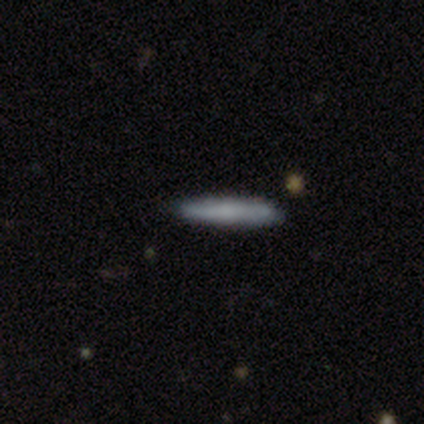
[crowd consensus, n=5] Overall: smooth (80%). How rounded: cigar-shaped (100%). Merging: none (60%; minor disturbance 40%).